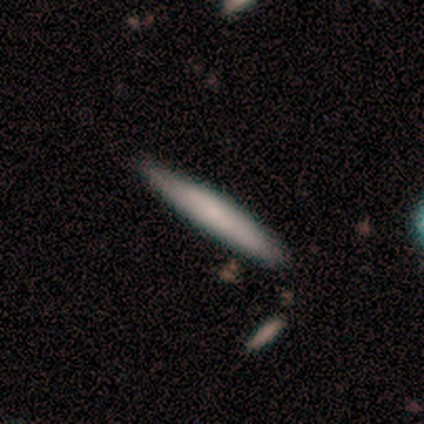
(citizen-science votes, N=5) A smooth galaxy with no disk features (80%) that is cigar-shaped (100%).

Vote fractions:
- Smooth or featured? smooth: 80% / featured or disk: 20% / star or artifact: 0%
- How rounded? cigar-shaped: 100% / round: 0% / in between: 0%
- Merging? none: 100% / minor disturbance: 0% / major disturbance: 0% / merger: 0%